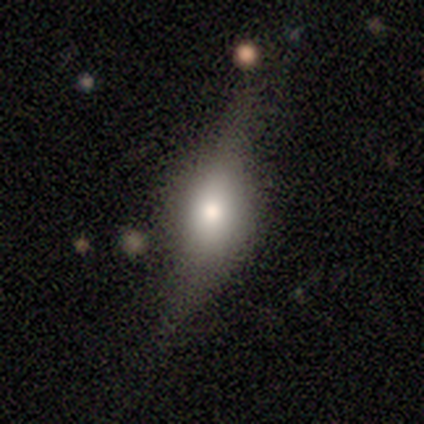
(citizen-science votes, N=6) A smooth galaxy with no disk features (50%) that is in between round and cigar-shaped (100%). Merging: none (40%, tied with minor disturbance).